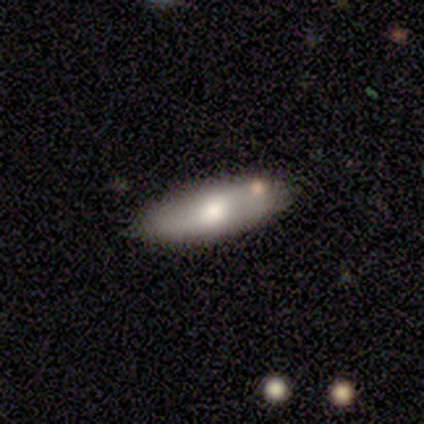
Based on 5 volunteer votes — Volunteers were most divided on "bar" (2-way tie): weak: 50%, no: 50%, strong: 0%; "spiral arms" (2-way tie): yes: 50%, no: 50%; "merging" (2-way tie): none: 40%, minor disturbance: 40%, merger: 20%, major disturbance: 0%. More confident: spiral winding — medium (100%); spiral arm count — 2 (100%); bulge size — moderate (100%); edge-on disk — no (67%); smooth or featured — featured or disk (60%).